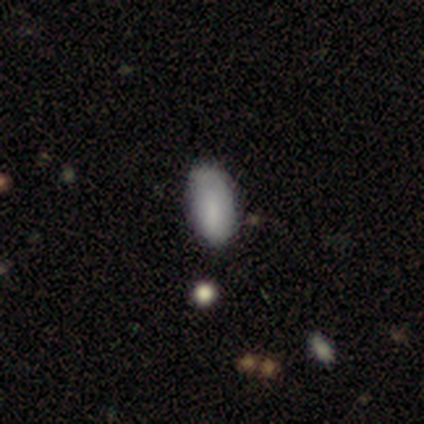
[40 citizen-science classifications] Overall: smooth (85%). How rounded: in between (88%). Merging: none (79%).